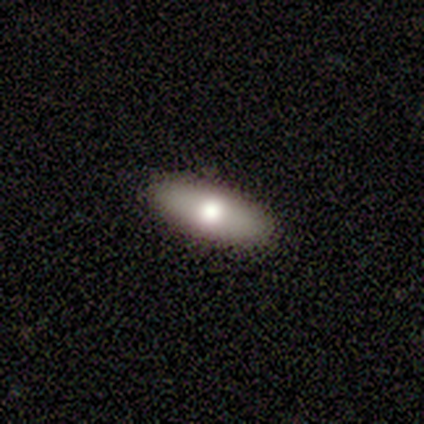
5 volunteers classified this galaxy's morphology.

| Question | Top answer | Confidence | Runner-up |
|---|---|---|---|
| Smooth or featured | smooth | 60% | featured or disk (40%) |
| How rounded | in between | 67% | cigar-shaped (33%) |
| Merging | none | 80% | minor disturbance (20%) |